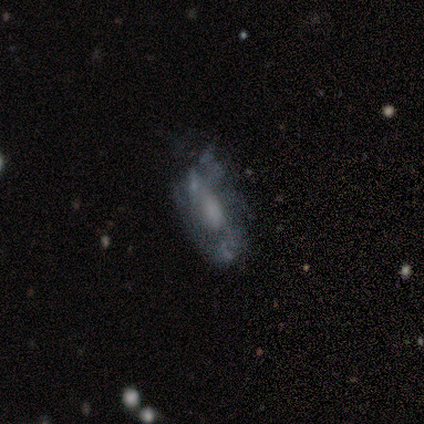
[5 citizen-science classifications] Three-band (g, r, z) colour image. It shows a featured or disk galaxy (80%) with a weak bar (50%, tied with no), 2 (50%, tied with can't tell) medium (50%, tied with loose) spiral arms (50%, tied with no) and a large central bulge (50%, tied with none). Merging: major disturbance (50%).